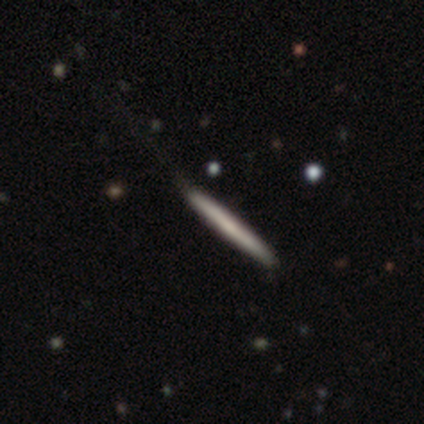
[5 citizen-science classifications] This is likely a smooth galaxy (60%). How rounded: clearly cigar-shaped (100%). Merging: likely none (60%).